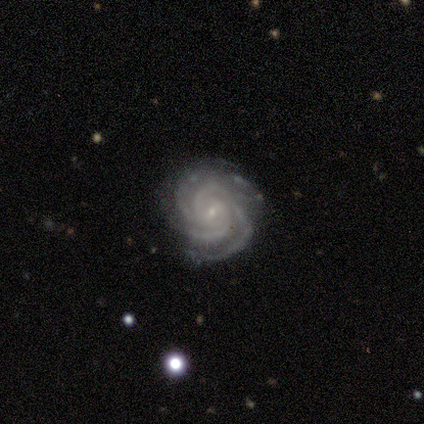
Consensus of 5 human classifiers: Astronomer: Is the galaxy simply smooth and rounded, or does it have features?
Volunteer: featured or disk — 100%.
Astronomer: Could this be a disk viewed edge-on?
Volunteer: no — 100%.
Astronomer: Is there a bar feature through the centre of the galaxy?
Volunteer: weak — 60%.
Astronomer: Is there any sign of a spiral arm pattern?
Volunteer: yes — 100%.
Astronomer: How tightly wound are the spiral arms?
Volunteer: tight — 100%.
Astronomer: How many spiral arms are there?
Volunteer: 3 — 40%, tied with 4 at 40%.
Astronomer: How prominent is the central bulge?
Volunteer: small — 80%.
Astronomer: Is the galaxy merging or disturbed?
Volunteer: none — 80%.